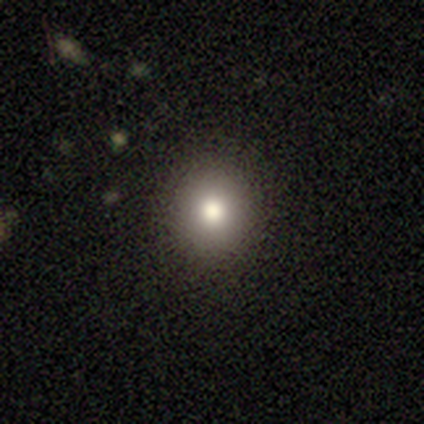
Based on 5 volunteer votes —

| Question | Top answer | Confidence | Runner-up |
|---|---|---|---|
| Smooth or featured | smooth | 80% | star or artifact (20%) |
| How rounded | round | 75% | in between (25%) |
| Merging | none | 75% | minor disturbance (25%) |